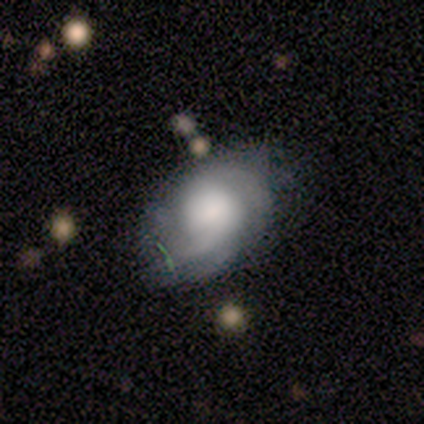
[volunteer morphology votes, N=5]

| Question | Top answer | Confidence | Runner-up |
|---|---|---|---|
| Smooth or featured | featured or disk | 60% | smooth (40%) |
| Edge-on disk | no | 100% | — |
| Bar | no | 67% | weak (33%) |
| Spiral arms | yes | 100% | — |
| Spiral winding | medium | 67% | loose (33%) |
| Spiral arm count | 2 | 67% | can't tell (33%) |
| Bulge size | large | 100% | — |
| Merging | none | 60% | minor disturbance (20%) |